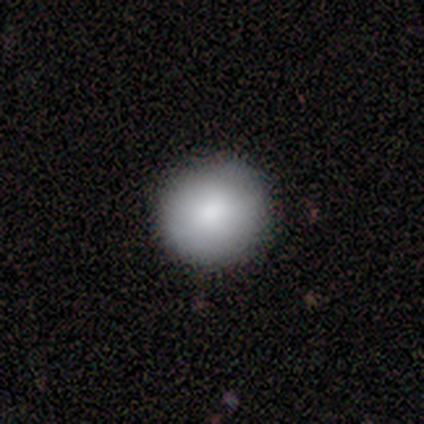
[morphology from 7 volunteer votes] Q: Smooth or featured?
A: smooth (86%); runner-up: featured or disk (14%)
Q: How rounded?
A: round (100%)
Q: Merging?
A: none (100%)